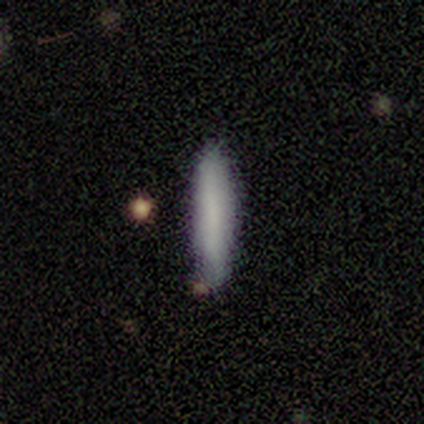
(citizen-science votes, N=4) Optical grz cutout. It shows a smooth galaxy with no disk features (100%) that is cigar-shaped (100%). Merging: none (100%).